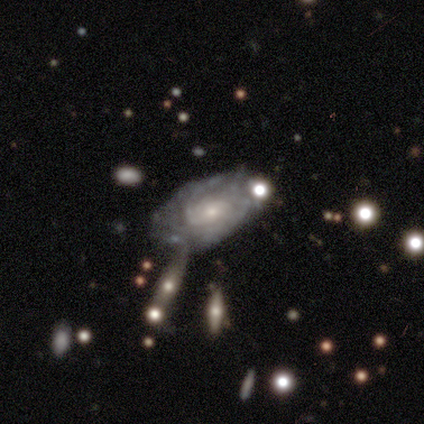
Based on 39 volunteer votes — This is clearly a featured or disk galaxy (87%). It is clearly not viewed edge-on (100%). Bar: clearly no (82%). Spiral arm pattern: clearly yes (82%). Spiral arm count: possibly can't tell (57%). Spiral winding: likely tight (79%). Central bulge: likely small (62%). Merging: marginally none (43%).